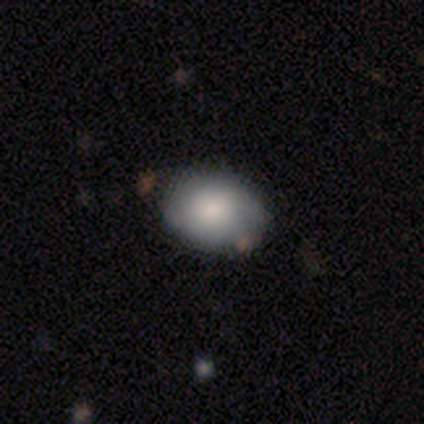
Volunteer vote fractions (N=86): Smooth or featured: smooth — 78% (featured or disk — 20%)
How rounded: in between — 66% (round — 34%)
Merging: none — 79% (minor disturbance — 17%)